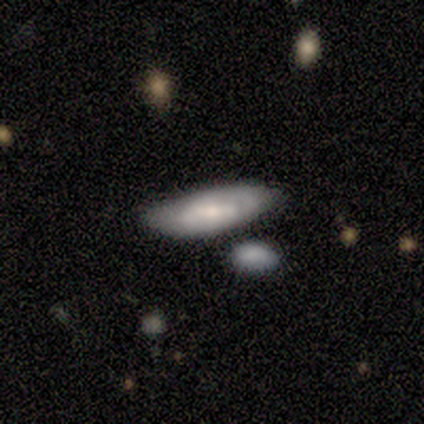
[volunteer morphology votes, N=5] type=smooth (100%); roundness=in between (80%); merging=none (100%).